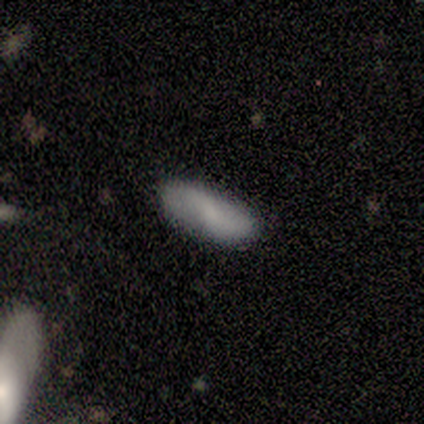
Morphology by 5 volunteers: smooth_or_featured: smooth (p=0.60) [alt: featured or disk p=0.40]
how_rounded: in between (p=0.67) [alt: cigar-shaped p=0.33]
merging: none (p=0.80) [alt: minor disturbance p=0.20]